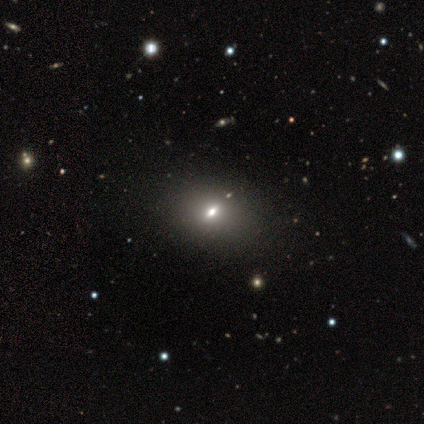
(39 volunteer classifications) This is likely a smooth galaxy (74%). How rounded: likely in between (69%). Merging: likely none (67%).